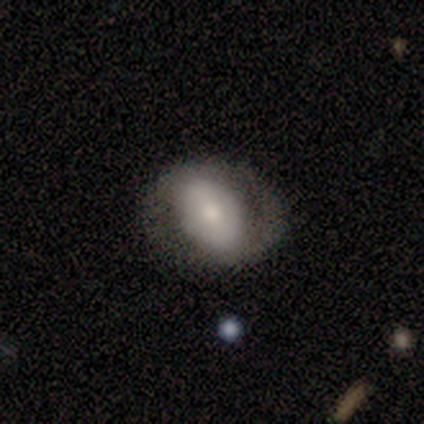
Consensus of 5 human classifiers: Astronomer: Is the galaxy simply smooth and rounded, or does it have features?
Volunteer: smooth — 60% (runner-up: featured or disk, 40%).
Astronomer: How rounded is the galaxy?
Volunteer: in between — 100%.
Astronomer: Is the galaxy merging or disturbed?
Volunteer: none — 40% (runner-up: minor disturbance, 20%).